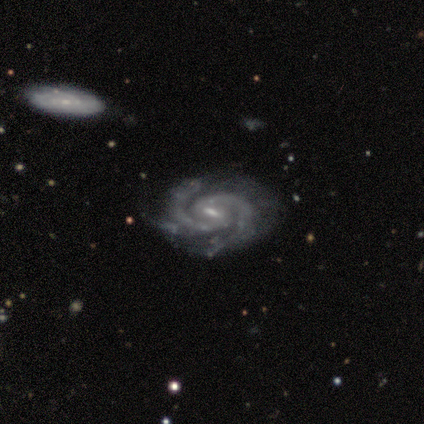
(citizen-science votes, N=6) This is clearly a featured or disk galaxy (100%). It is clearly not viewed edge-on (100%). Bar: possibly weak (50%). Spiral arm pattern: clearly yes (100%). Spiral arm count: clearly 2 (100%). Spiral winding: likely medium (67%). Central bulge: likely moderate (67%). Merging: clearly none (83%).